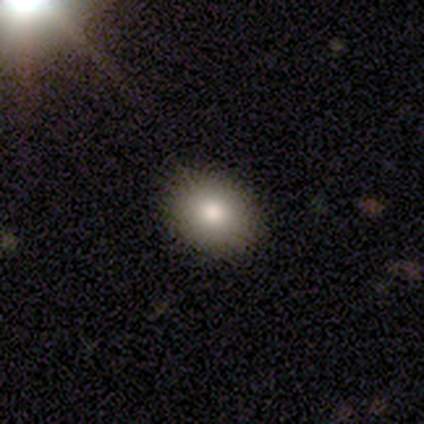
A smooth galaxy with no disk features (89%) that is round (53%). Merging: none (81%).